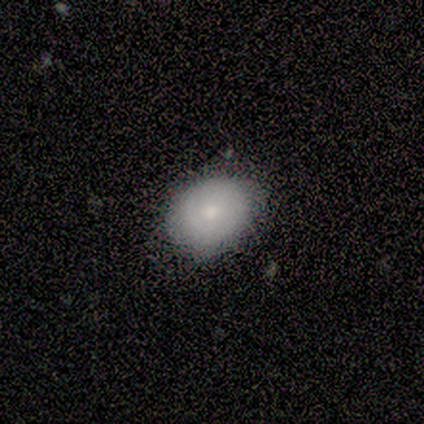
A smooth galaxy with no disk features (80%) that is round (75%). Merging: minor disturbance (60%).